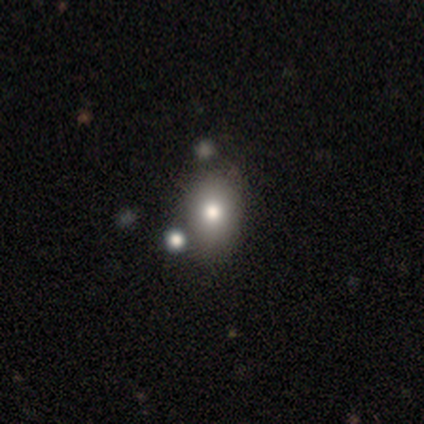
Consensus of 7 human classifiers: Morphology: type=smooth (57%); roundness=in between (100%); merging=none (83%).